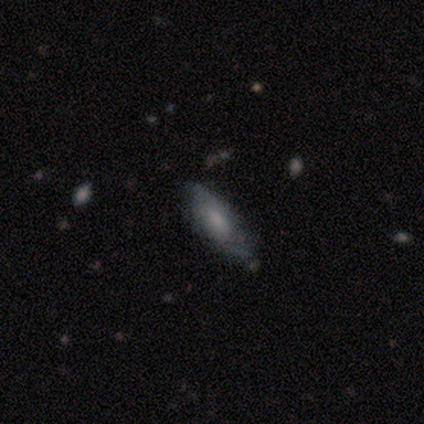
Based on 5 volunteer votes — Smooth or featured?
  - featured or disk: 60% *
  - smooth: 20%
  - star or artifact: 20%
Edge-on disk?
  - no: 100% *
  - yes: 0%
Bar?
  - no: 100% *
  - strong: 0%
  - weak: 0%
Spiral arms?
  - yes: 67% *
  - no: 33%
Spiral winding?
  - medium: 50% * (tied)
  - loose: 50% * (tied)
  - tight: 0%
Spiral arm count?
  - 2: 50% * (tied)
  - can't tell: 50% * (tied)
  - 1: 0%
  - 3: 0%
  - 4: 0%
  - more than 4: 0%
Bulge size?
  - none: 67% *
  - moderate: 33%
  - dominant: 0%
  - large: 0%
  - small: 0%
Merging?
  - none: 75% *
  - minor disturbance: 25%
  - major disturbance: 0%
  - merger: 0%